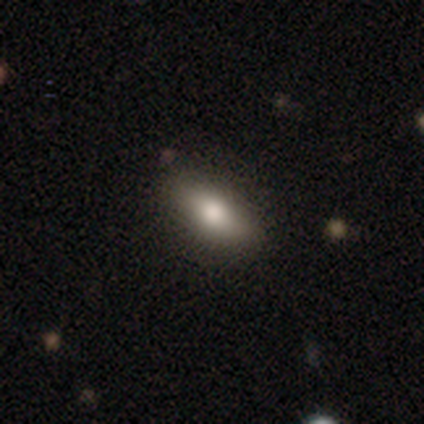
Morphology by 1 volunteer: A smooth galaxy with no disk features (100%) that is in between round and cigar-shaped (100%). Merging: none (100%).